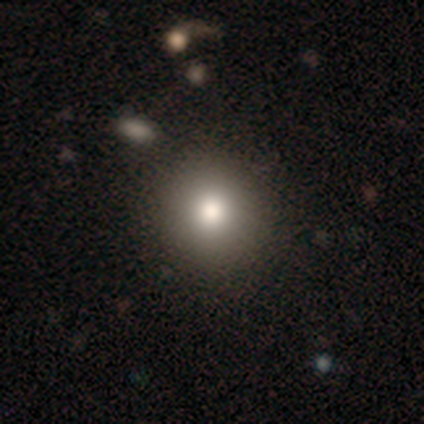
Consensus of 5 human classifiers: This is clearly a smooth galaxy (80%). How rounded: clearly round (100%). Merging: clearly none (100%).